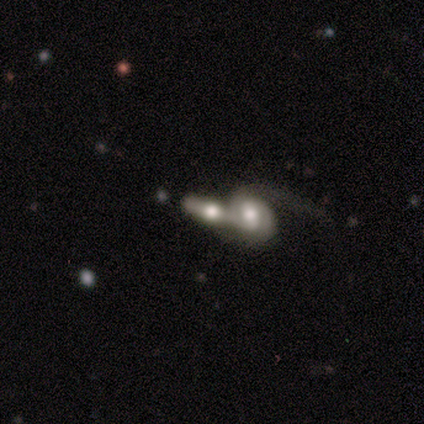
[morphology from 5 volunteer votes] Smooth or featured? 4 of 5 (80%) said featured or disk. Edge-on disk? 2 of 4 (50%, tied with no) said yes. Edge-on bulge? 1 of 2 (50%, tied with rounded) said boxy. Merging? 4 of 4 (100%) said merger.